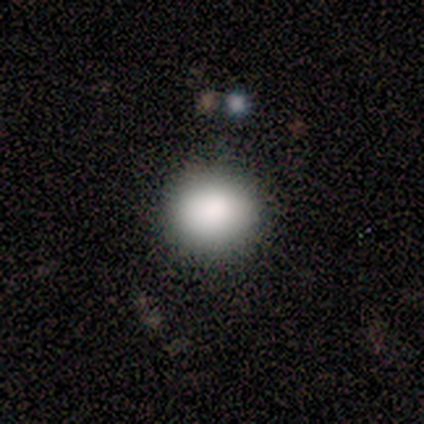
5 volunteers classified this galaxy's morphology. Smooth or featured? smooth (100%)
How rounded? round (80%)
Merging? none (80%)